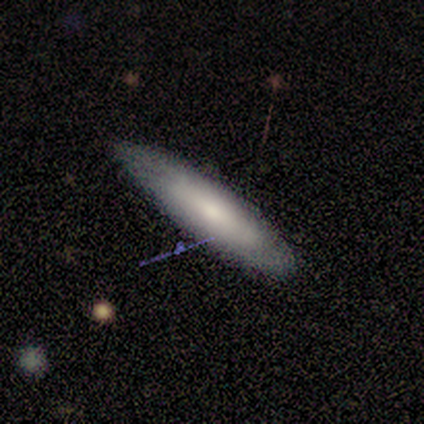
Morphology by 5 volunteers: Overall: smooth (60%; featured or disk 20%). How rounded: in between (67%; cigar-shaped 33%). Merging: none (75%).